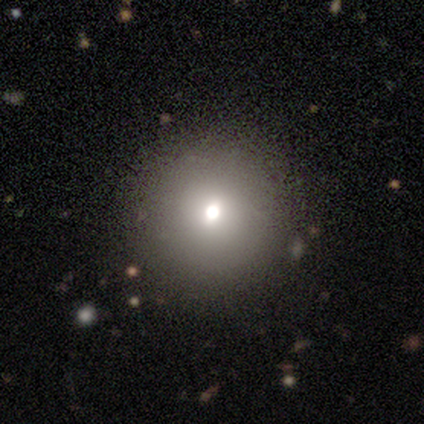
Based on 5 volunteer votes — This appears to be a smooth galaxy with no disk features (60%) that is round (100%). Merging: none (100%).